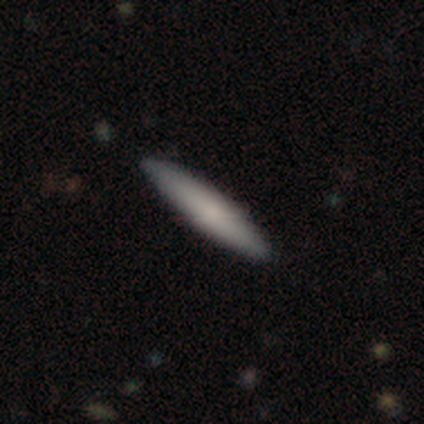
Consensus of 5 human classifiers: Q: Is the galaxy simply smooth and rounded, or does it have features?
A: smooth — 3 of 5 (60%).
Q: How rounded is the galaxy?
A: cigar-shaped — 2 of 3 (67%).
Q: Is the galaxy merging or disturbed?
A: none — 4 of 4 (100%).